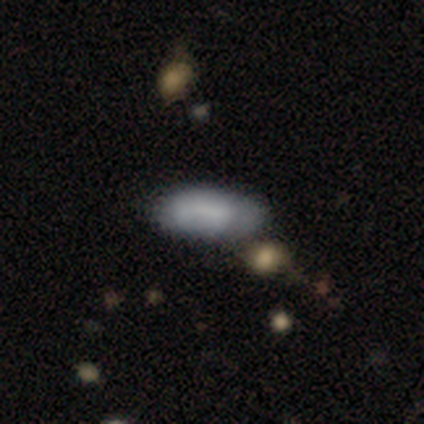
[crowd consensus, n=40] Q: Smooth or featured?
A: smooth (72%); runner-up: featured or disk (22%)
Q: How rounded?
A: in between (90%); runner-up: cigar-shaped (7%)
Q: Merging?
A: minor disturbance (32%); runner-up: none (29%)